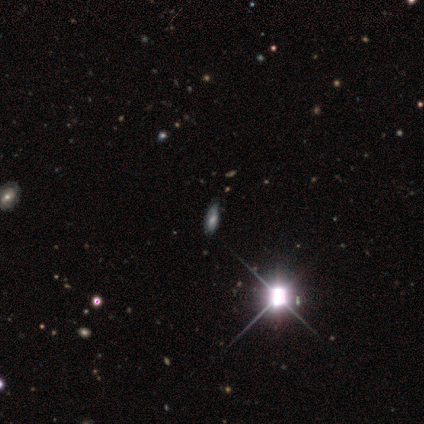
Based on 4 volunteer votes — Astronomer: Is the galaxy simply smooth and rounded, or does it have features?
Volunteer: star or artifact — 50%.